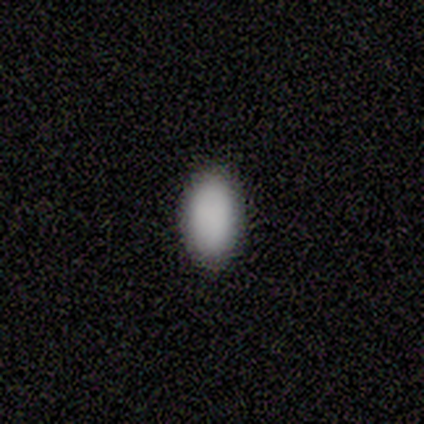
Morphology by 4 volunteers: A smooth galaxy with no disk features (75%) that is in between round and cigar-shaped (100%). Merging: none (100%).